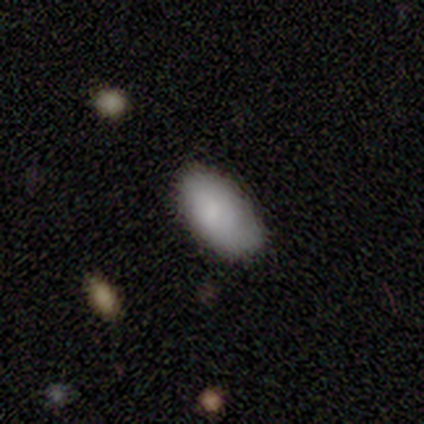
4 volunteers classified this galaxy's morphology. Q: Smooth or featured?
A: smooth (100%)
Q: How rounded?
A: in between (75%); runner-up: round (25%)
Q: Merging?
A: none (50%); tied with: minor disturbance (50%)